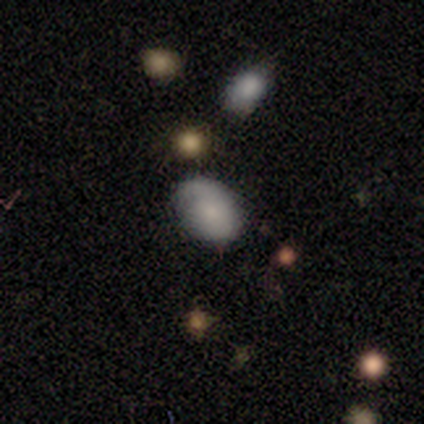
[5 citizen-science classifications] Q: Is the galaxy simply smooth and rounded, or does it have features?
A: featured or disk — 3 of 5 (60%).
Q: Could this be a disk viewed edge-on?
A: no — 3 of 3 (100%).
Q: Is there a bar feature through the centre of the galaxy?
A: no — 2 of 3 (67%).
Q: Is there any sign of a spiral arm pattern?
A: yes — 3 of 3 (100%).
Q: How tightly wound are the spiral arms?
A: tight — 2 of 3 (67%).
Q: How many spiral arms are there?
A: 1 — 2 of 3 (67%).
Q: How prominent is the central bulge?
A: moderate — 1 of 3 (33%, tied with small and none).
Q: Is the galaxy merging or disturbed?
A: none — 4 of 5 (80%).